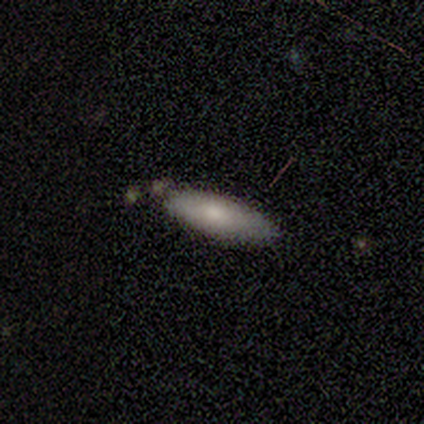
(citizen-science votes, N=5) Smooth or featured: smooth — 100%
How rounded: in between — 80% (cigar-shaped — 20%)
Merging: none — 80% (minor disturbance — 20%)